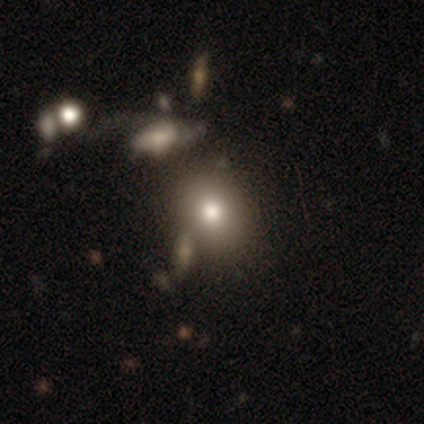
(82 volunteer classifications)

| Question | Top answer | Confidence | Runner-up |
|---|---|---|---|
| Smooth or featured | smooth | 77% | featured or disk (13%) |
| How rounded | round | 52% | in between (46%) |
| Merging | none | 61% | minor disturbance (14%) |